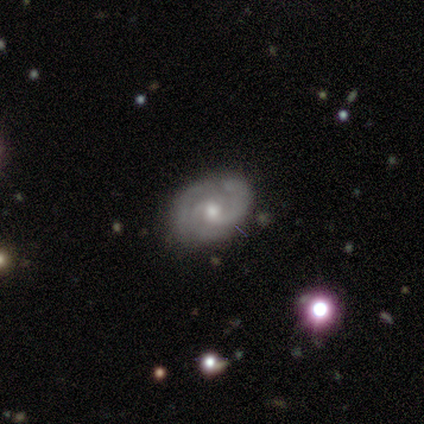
smooth-or-featured: featured or disk: 90% | star or artifact: 10% | smooth: 0%
  disk-edge-on: no: 100% | yes: 0%
    bar: no: 78% | strong: 11% | weak: 11%
    has-spiral-arms: yes: 100% | no: 0%
      spiral-winding: tight: 100% | medium: 0% | loose: 0%
      spiral-arm-count: 3: 44% | 2: 33% | can't tell: 22% | 1: 0% | 4: 0% | more than 4: 0%
    bulge-size: moderate: 78% | small: 22% | dominant: 0% | large: 0% | none: 0%
  merging: none: 78% | minor disturbance: 22% | major disturbance: 0% | merger: 0%